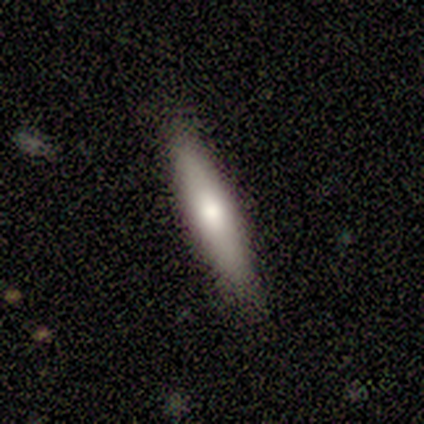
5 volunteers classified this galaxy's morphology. type=smooth (80%); roundness=cigar-shaped (75%); merging=none (80%).